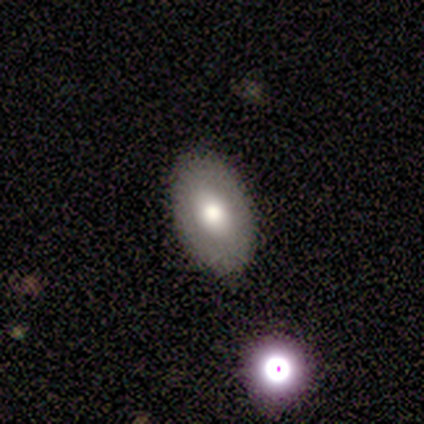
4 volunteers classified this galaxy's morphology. Q: Smooth or featured?
A: smooth (50%); tied with: featured or disk (50%)
Q: How rounded?
A: round (50%); tied with: in between (50%)
Q: Merging?
A: none (75%); runner-up: merger (25%)